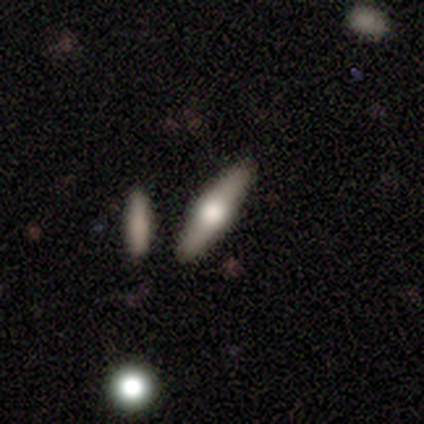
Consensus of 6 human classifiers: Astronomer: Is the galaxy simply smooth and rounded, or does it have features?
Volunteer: featured or disk — 83%.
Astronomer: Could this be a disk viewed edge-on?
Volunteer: yes — 100%.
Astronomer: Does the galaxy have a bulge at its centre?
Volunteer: rounded — 60%.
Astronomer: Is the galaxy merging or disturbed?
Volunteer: none — 100%.